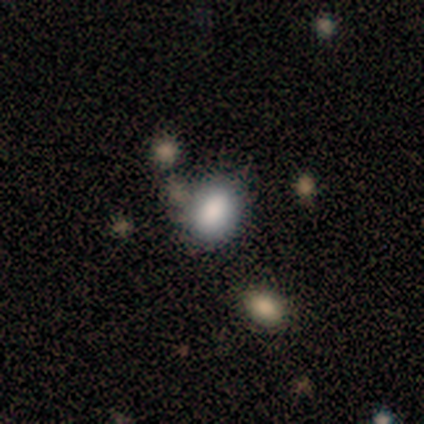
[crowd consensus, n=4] smooth-or-featured: smooth: 100% | featured or disk: 0% | star or artifact: 0%
  how-rounded: round: 75% | in between: 25% | cigar-shaped: 0%
  merging: none: 100% | minor disturbance: 0% | major disturbance: 0% | merger: 0%